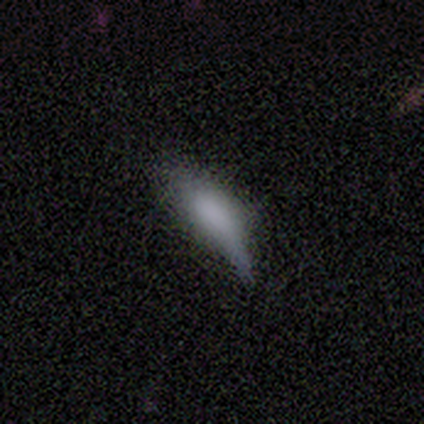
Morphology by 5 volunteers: Smooth or featured? 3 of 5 (60%) said smooth. How rounded? 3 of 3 (100%) said in between. Merging? 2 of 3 (67%) said minor disturbance.